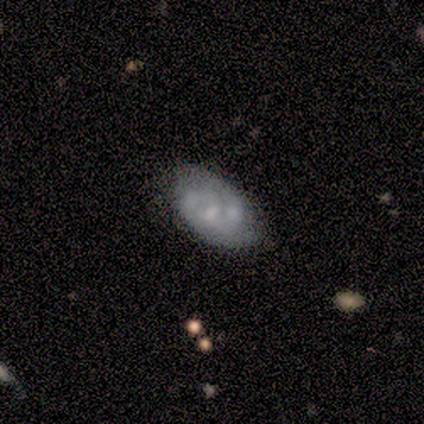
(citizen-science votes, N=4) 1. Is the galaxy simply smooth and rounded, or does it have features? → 75% featured or disk, 25% smooth, 0% star or artifact.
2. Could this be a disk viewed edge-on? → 100% no, 0% yes.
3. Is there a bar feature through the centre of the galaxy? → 100% no, 0% strong, 0% weak.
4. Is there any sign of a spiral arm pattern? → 67% no, 33% yes.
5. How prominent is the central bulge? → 67% none, 33% small, 0% dominant, 0% large, 0% moderate.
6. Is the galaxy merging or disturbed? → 75% none, 25% major disturbance, 0% minor disturbance, 0% merger.